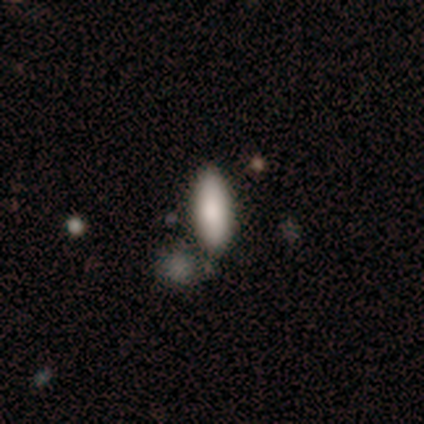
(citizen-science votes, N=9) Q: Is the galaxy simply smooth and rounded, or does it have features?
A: smooth — 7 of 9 (78%).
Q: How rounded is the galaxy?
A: cigar-shaped — 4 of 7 (57%).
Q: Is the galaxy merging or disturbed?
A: none — 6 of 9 (67%).